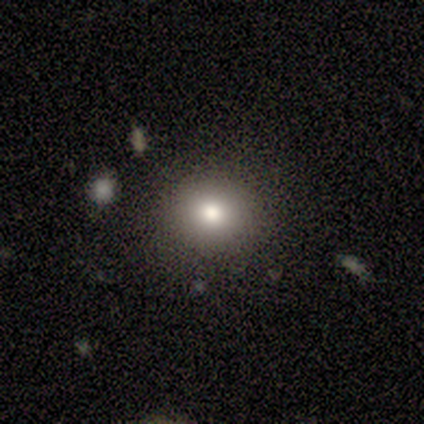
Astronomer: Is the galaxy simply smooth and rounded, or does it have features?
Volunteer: smooth — 80%.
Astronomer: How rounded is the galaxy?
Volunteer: round — 75%.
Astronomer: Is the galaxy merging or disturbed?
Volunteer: none — 80%.